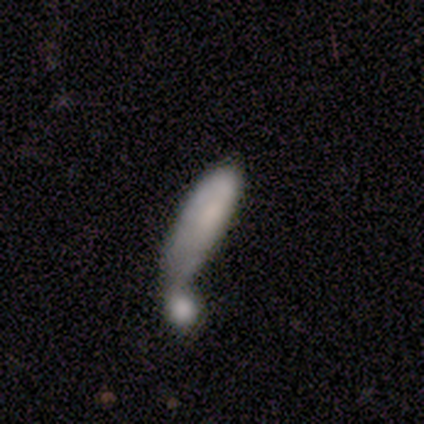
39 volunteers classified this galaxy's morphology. Overall: smooth (72%). How rounded: in between (57%; cigar-shaped 43%). Merging: merger (68%).